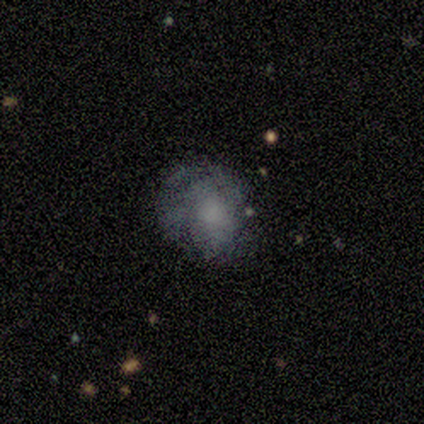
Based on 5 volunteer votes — Q: Smooth or featured?
A: smooth (60%); runner-up: featured or disk (40%)
Q: How rounded?
A: round (100%)
Q: Merging?
A: none (40%); tied with: major disturbance (40%)